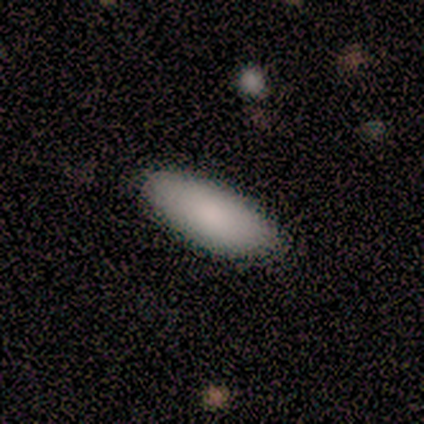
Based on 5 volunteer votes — Q: Smooth or featured?
A: smooth (100%)
Q: How rounded?
A: in between (100%)
Q: Merging?
A: none (100%)